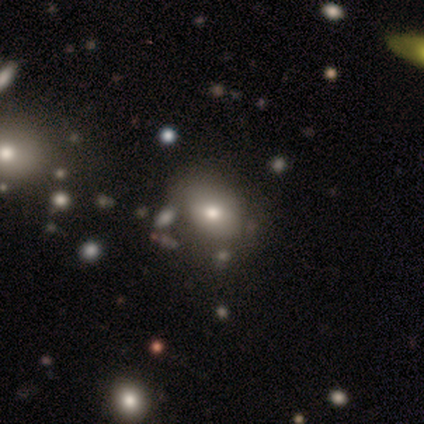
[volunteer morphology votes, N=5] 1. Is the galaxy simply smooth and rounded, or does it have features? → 100% smooth, 0% featured or disk, 0% star or artifact.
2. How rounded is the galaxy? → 100% in between, 0% round, 0% cigar-shaped.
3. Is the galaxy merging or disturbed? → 80% none, 20% merger, 0% minor disturbance, 0% major disturbance.